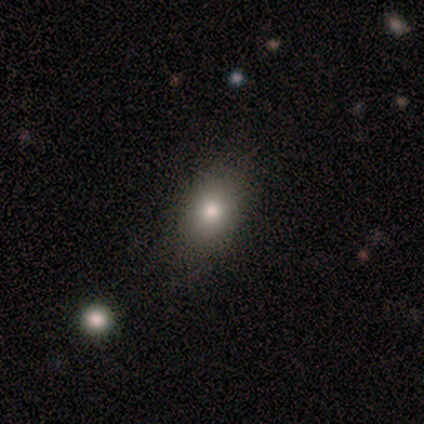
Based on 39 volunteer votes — Overall: smooth (72%). How rounded: in between (64%; round 32%). Merging: none (75%).